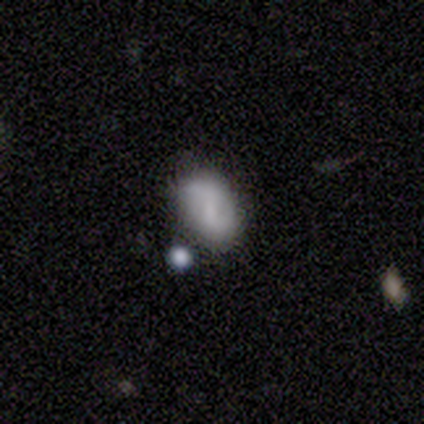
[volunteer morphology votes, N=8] Volunteers were most divided on "bar" (2-way tie): weak: 50%, no: 50%, strong: 0%; "spiral arms" (2-way tie): yes: 50%, no: 50%. More confident: edge-on disk — no (100%); spiral winding — medium (100%); spiral arm count — 2 (100%); bulge size — small (100%); merging — none (67%); smooth or featured — featured or disk (50%).